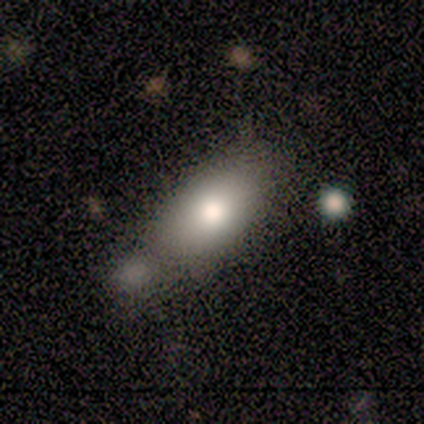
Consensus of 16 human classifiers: A smooth galaxy with no disk features (88%) that is in between round and cigar-shaped (86%).

Vote fractions:
- Smooth or featured? smooth: 88% / featured or disk: 6% / star or artifact: 6%
- How rounded? in between: 86% / round: 14% / cigar-shaped: 0%
- Merging? none: 40% / merger: 27% / minor disturbance: 20% / major disturbance: 13%